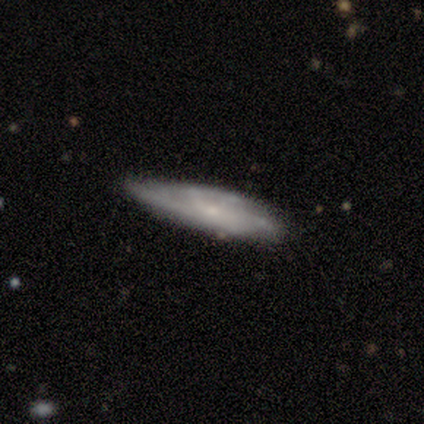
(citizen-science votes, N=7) Smooth or featured: featured or disk — 100%
Edge-on disk: no — 57% (yes — 43%)
Bar: weak — 75% (no — 25%)
Spiral arms: yes — 100%
Spiral winding: tight — 50% (medium — 25%)
Spiral arm count: can't tell — 75% (more than 4 — 25%)
Bulge size: small — 50% (moderate — 25%)
Merging: none — 57% (major disturbance — 29%)